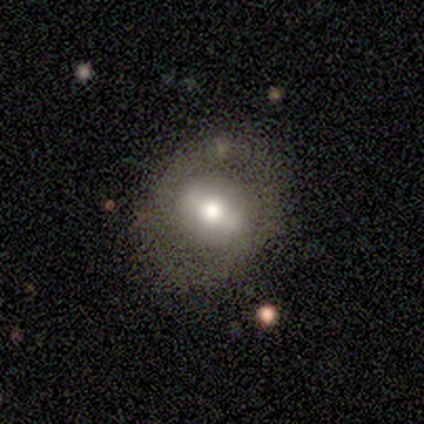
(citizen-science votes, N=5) Smooth or featured?
  - smooth: 60% *
  - featured or disk: 40%
  - star or artifact: 0%
How rounded?
  - round: 67% *
  - in between: 33%
  - cigar-shaped: 0%
Merging?
  - none: 60% *
  - minor disturbance: 20%
  - major disturbance: 20%
  - merger: 0%